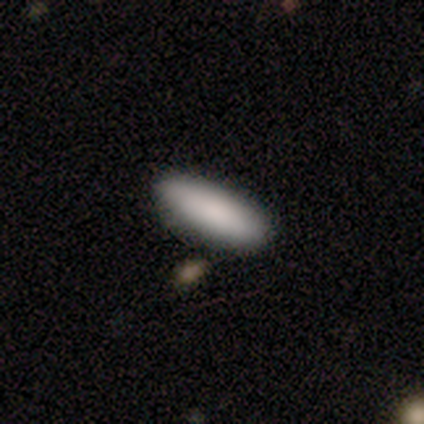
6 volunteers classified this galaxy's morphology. smooth 83%, star or artifact 17%, featured or disk 0%. Down the decision tree: how rounded — cigar-shaped (60%); merging — none (80%).